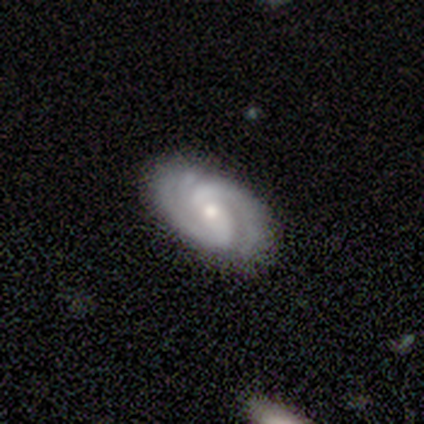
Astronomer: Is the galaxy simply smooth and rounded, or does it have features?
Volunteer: featured or disk — 90%.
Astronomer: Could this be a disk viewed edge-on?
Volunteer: no — 89%.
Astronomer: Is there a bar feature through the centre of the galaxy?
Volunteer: weak — 48% (runner-up: no, 35%).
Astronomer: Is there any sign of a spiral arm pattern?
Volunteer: yes — 100%.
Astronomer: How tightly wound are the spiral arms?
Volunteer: tight — 48% (runner-up: medium, 42%).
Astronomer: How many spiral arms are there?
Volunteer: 2 — 71%.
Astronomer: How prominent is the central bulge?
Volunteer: small — 55% (runner-up: moderate, 45%).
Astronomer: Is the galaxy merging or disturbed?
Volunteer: none — 81%.